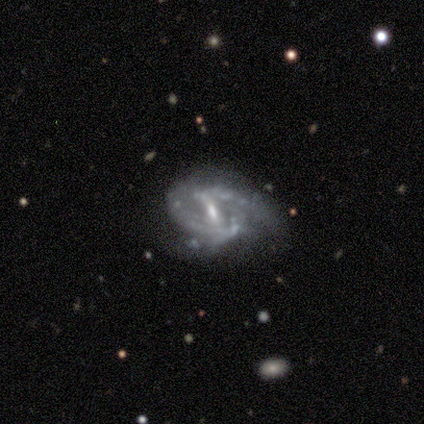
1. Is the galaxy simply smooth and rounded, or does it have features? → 90% featured or disk, 10% star or artifact, 0% smooth.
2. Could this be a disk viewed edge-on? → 100% no, 0% yes.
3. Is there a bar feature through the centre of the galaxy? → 56% strong, 33% weak, 11% no.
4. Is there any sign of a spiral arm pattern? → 89% yes, 11% no.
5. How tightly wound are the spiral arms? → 62% loose, 38% tight, 0% medium.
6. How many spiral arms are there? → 62% 2, 25% can't tell, 12% 1, 0% 3, 0% 4, 0% more than 4.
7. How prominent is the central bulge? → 67% moderate, 33% small, 0% dominant, 0% large, 0% none.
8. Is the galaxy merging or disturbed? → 67% none, 33% minor disturbance, 0% major disturbance, 0% merger.